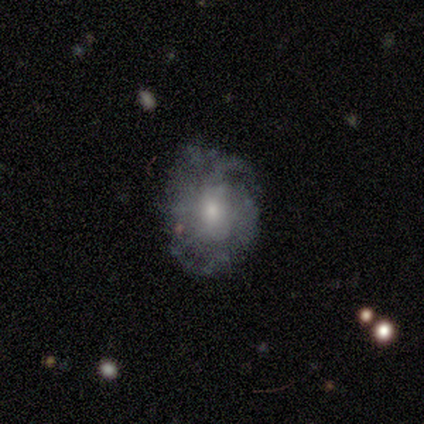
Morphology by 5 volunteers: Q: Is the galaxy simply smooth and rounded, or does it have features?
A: featured or disk — 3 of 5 (60%).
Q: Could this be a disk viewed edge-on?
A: no — 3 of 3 (100%).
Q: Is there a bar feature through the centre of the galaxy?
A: no — 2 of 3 (67%).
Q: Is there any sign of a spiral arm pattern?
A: yes — 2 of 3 (67%).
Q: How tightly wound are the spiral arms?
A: tight — 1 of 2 (50%, tied with medium).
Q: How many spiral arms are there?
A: can't tell — 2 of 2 (100%).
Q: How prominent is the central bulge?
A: small — 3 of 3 (100%).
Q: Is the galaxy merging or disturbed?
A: none — 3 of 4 (75%).